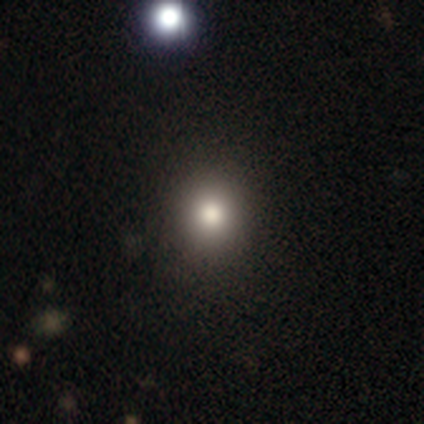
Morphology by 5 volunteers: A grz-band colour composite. It shows a smooth galaxy with no disk features (100%) that is round (60%). Merging: none (80%).